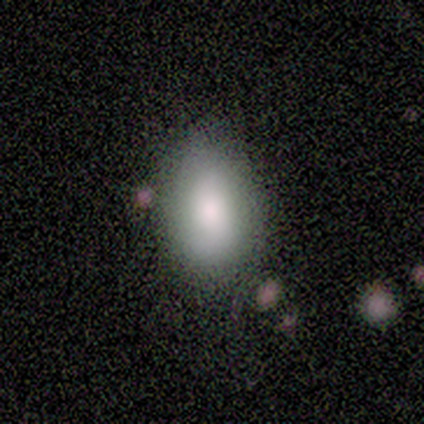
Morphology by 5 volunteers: Smooth or featured? smooth (60%)
How rounded? in between (100%)
Merging? none (80%)